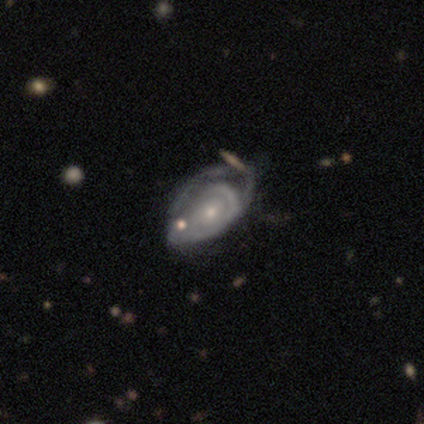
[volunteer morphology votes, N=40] smooth-or-featured: featured or disk: 88% | star or artifact: 8% | smooth: 5%
  disk-edge-on: no: 97% | yes: 3%
    bar: no: 82% | weak: 18% | strong: 0%
    has-spiral-arms: yes: 74% | no: 26%
      spiral-winding: tight: 52% | medium: 40% | loose: 8%
      spiral-arm-count: can't tell: 64% | 2: 12% | 3: 12% | 1: 8% | 4: 4% | more than 4: 0%
    bulge-size: small: 59% | moderate: 32% | none: 6% | dominant: 3% | large: 0%
  merging: major disturbance: 30% | none: 22% | minor disturbance: 14% | merger: 11%